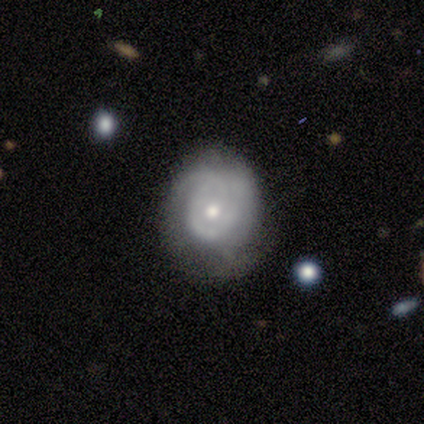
smooth-or-featured: featured or disk: 80% | star or artifact: 20% | smooth: 0%
  disk-edge-on: no: 100% | yes: 0%
    bar: no: 100% | strong: 0% | weak: 0%
    has-spiral-arms: yes: 100% | no: 0%
      spiral-winding: tight: 75% | loose: 25% | medium: 0%
      spiral-arm-count: can't tell: 50% | 1: 25% | 2: 25% | 3: 0% | 4: 0% | more than 4: 0%
    bulge-size: moderate: 75% | small: 25% | dominant: 0% | large: 0% | none: 0%
  merging: none: 100% | minor disturbance: 0% | major disturbance: 0% | merger: 0%